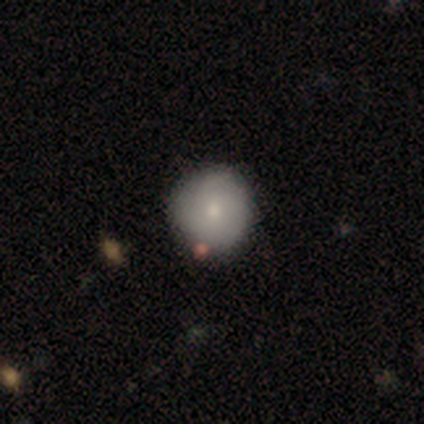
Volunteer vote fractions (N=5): smooth-or-featured: smooth: 40% (tied) | featured or disk: 40% (tied) | star or artifact: 20%
  how-rounded: round: 100% | in between: 0% | cigar-shaped: 0%
  merging: none: 75% | merger: 25% | minor disturbance: 0% | major disturbance: 0%